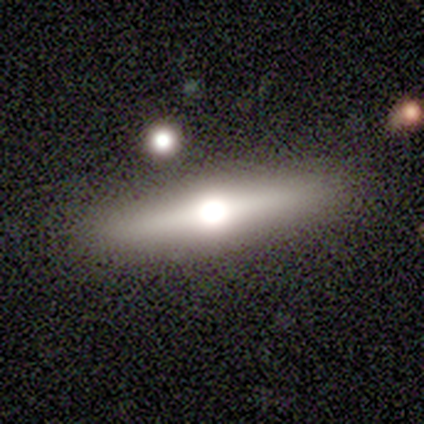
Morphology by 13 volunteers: This appears to be a featured or disk galaxy (54%) viewed edge-on (100%) with a rounded central bulge (100%). Merging: none (85%).